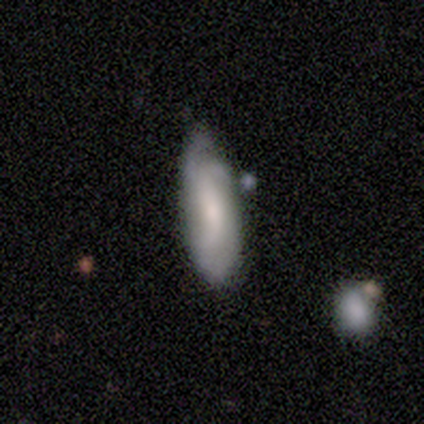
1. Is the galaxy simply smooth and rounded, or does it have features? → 75% smooth, 25% featured or disk, 0% star or artifact.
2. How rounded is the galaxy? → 67% cigar-shaped, 33% in between, 0% round.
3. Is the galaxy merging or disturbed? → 50% minor disturbance, 25% none, 25% major disturbance, 0% merger.